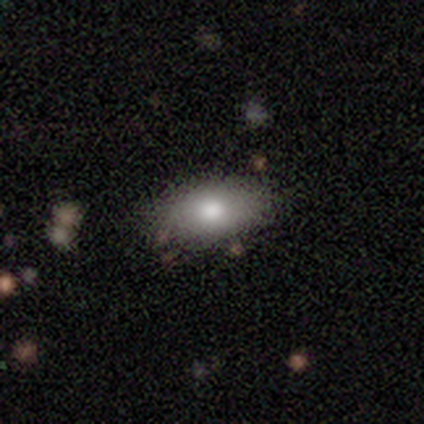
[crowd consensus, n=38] A smooth galaxy with no disk features (74%) that is in between round and cigar-shaped (96%).

Vote fractions:
- Smooth or featured? smooth: 74% / featured or disk: 13% / star or artifact: 13%
- How rounded? in between: 96% / round: 4% / cigar-shaped: 0%
- Merging? none: 82% / minor disturbance: 12% / merger: 6% / major disturbance: 0%